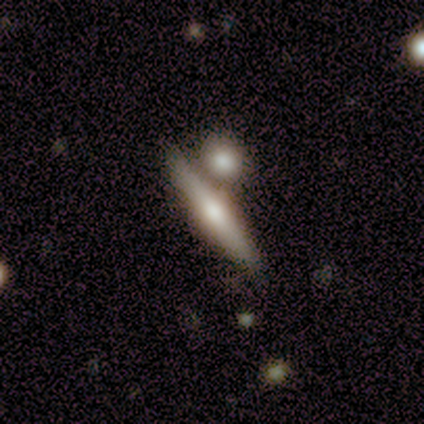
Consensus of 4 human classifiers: A featured or disk galaxy (100%) viewed edge-on (100%) with a rounded central bulge (100%).

Vote fractions:
- Smooth or featured? featured or disk: 100% / smooth: 0% / star or artifact: 0%
- Edge-on disk? yes: 100% / no: 0%
- Edge-on bulge? rounded: 100% / boxy: 0% / none: 0%
- Merging? none: 75% / merger: 25% / minor disturbance: 0% / major disturbance: 0%